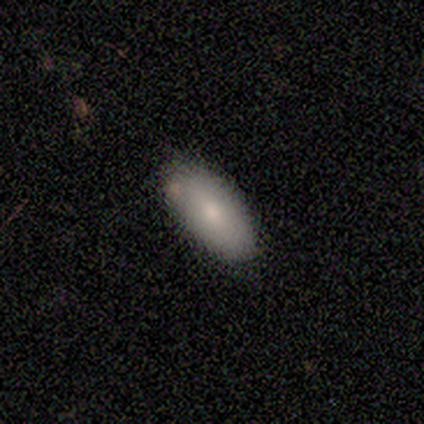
A smooth galaxy with no disk features (67%) that is in between round and cigar-shaped (100%). Merging: none (100%).